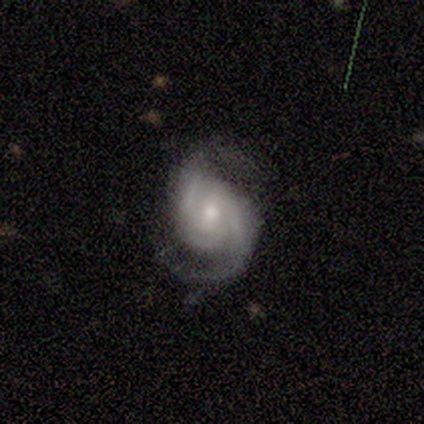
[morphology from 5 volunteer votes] Q: Smooth or featured?
A: featured or disk (100%)
Q: Edge-on disk?
A: no (100%)
Q: Bar?
A: weak (60%); runner-up: no (40%)
Q: Spiral arms?
A: yes (100%)
Q: Spiral winding?
A: medium (60%); runner-up: tight (40%)
Q: Spiral arm count?
A: 2 (80%); runner-up: can't tell (20%)
Q: Bulge size?
A: moderate (40%); tied with: small (40%)
Q: Merging?
A: none (80%); runner-up: major disturbance (20%)